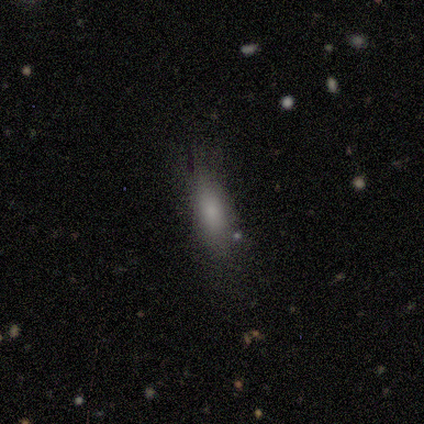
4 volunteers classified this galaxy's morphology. Smooth or featured? 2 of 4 (50%) said smooth. How rounded? 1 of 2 (50%, tied with cigar-shaped) said in between. Merging? 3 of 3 (100%) said none.